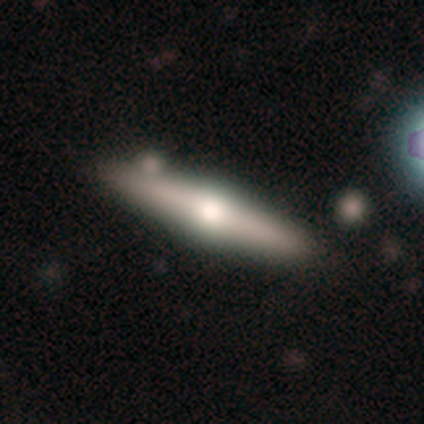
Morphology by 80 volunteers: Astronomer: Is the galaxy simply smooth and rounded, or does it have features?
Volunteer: featured or disk — 68%.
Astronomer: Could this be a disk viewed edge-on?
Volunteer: yes — 93%.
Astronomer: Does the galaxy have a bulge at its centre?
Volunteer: rounded — 96%.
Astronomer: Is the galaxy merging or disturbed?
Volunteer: none — 40%.